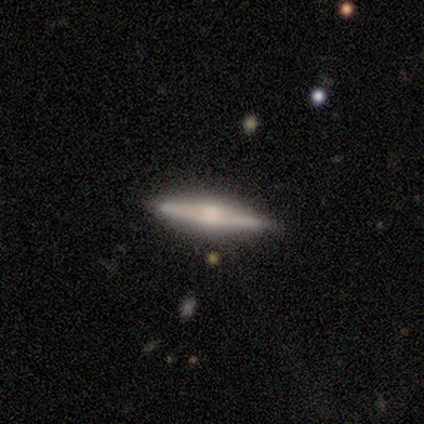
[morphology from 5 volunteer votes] Overall: featured or disk (100%). Edge-on disk: yes (100%). Edge-on bulge: rounded (80%). Merging: none (100%).